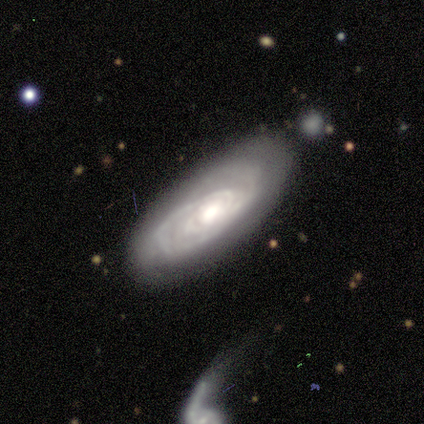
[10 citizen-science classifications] Overall: featured or disk (100%). Edge-on disk: no (80%). Bar: no (75%). Spiral arms: yes (100%). Spiral arm count: can't tell (62%; 4 25%). Spiral winding: tight (100%). Bulge size: moderate (75%). Merging: none (50%; minor disturbance 40%).